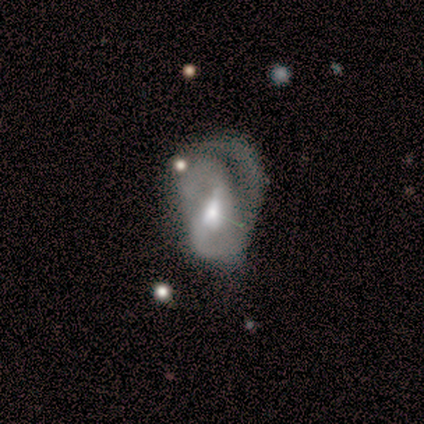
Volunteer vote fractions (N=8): This appears to be a featured or disk galaxy (88%) with a weak bar (71%), 2 (43%) tight (43%) spiral arms (100%) and a moderate central bulge (86%). Merging: major disturbance (50%).